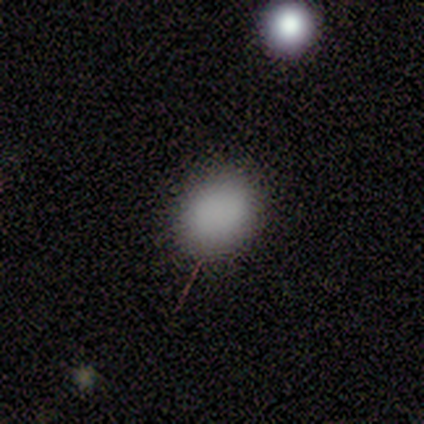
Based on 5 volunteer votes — Smooth or featured?
  - smooth: 100% *
  - featured or disk: 0%
  - star or artifact: 0%
How rounded?
  - round: 60% *
  - in between: 40%
  - cigar-shaped: 0%
Merging?
  - none: 80% *
  - minor disturbance: 20%
  - major disturbance: 0%
  - merger: 0%